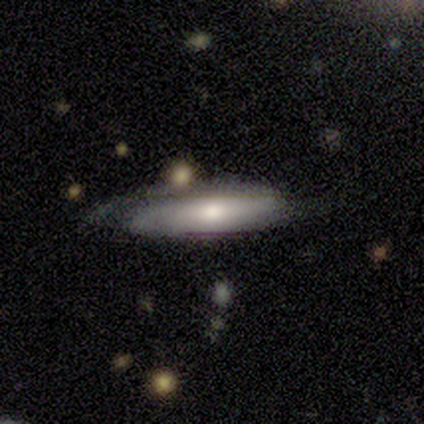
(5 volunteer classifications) Smooth or featured? featured or disk (60%)
Edge-on disk? no (67%)
Bar? weak (50%, tied with no)
Spiral arms? yes (50%, tied with no)
Spiral winding? tight (100%)
Spiral arm count? can't tell (100%)
Bulge size? moderate (50%, tied with small)
Merging? minor disturbance (50%)